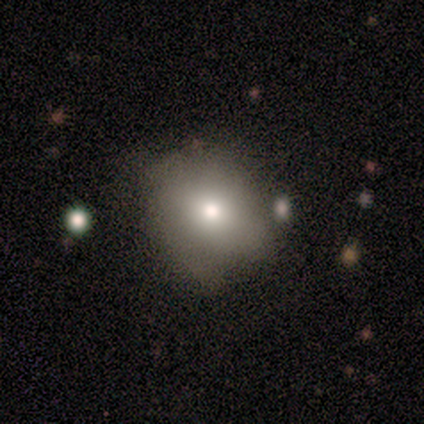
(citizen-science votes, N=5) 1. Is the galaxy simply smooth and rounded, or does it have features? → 60% star or artifact, 40% smooth, 0% featured or disk.